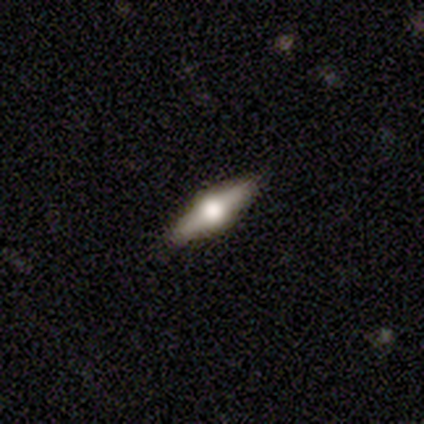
This appears to be a featured or disk galaxy (60%) viewed edge-on (100%) with a rounded central bulge (100%). Merging: none (100%).